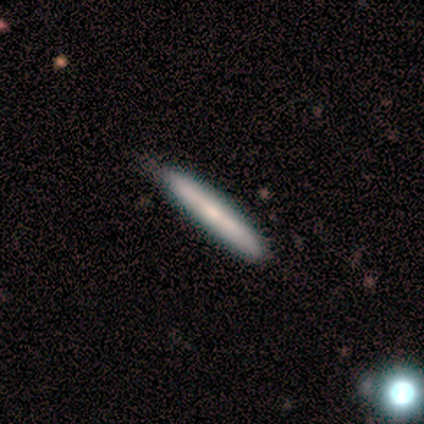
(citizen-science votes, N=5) smooth 60%, featured or disk 40%, star or artifact 0%. Down the decision tree: how rounded — cigar-shaped (100%); merging — none (100%).